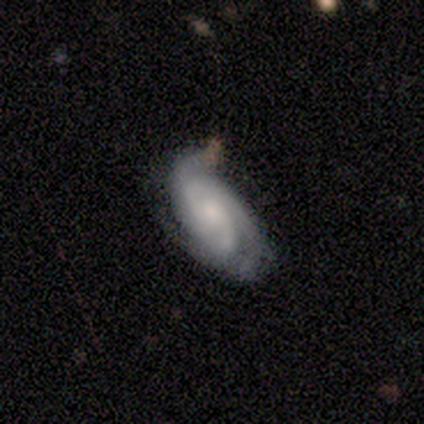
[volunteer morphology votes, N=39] Smooth or featured?
  - featured or disk: 87% *
  - smooth: 13%
  - star or artifact: 0%
Edge-on disk?
  - no: 100% *
  - yes: 0%
Bar?
  - no: 56% *
  - weak: 38%
  - strong: 6%
Spiral arms?
  - yes: 94% *
  - no: 6%
Spiral winding?
  - tight: 75% *
  - medium: 22%
  - loose: 3%
Spiral arm count?
  - 2: 34% * (tied)
  - 3: 34% * (tied)
  - can't tell: 22%
  - 4: 6%
  - more than 4: 3%
  - 1: 0%
Bulge size?
  - small: 47% *
  - moderate: 41%
  - none: 6%
  - dominant: 3%
  - large: 3%
Merging?
  - none: 67% *
  - minor disturbance: 15%
  - merger: 10%
  - major disturbance: 8%